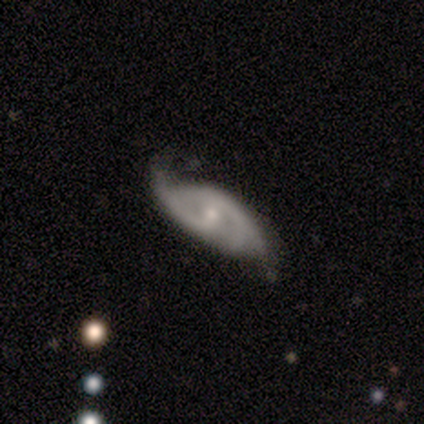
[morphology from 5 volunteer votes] A featured or disk galaxy (100%) with a weak bar (40%, tied with no), 2 (40%, tied with 3) medium (60%) spiral arms (100%) and a small central bulge (60%). Merging: minor disturbance (40%, tied with major disturbance).